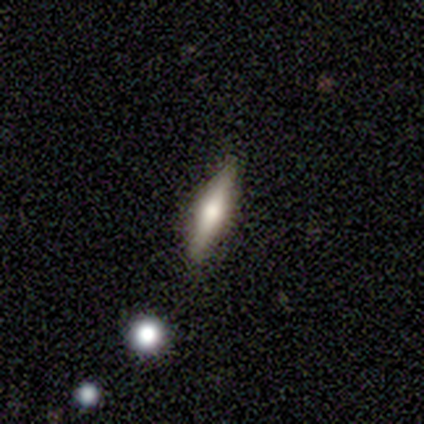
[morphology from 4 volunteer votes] smooth 75%, featured or disk 25%, star or artifact 0%. Down the decision tree: how rounded — cigar-shaped (67%); merging — none (50%).